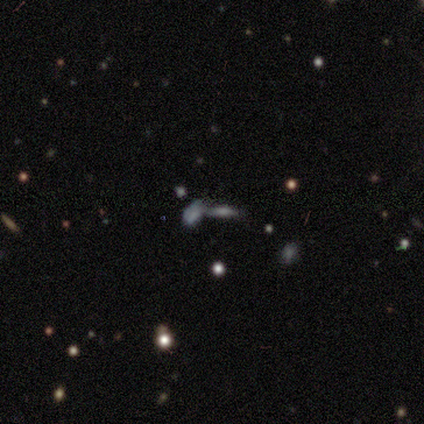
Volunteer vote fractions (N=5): smooth-or-featured: smooth: 40% (tied) | featured or disk: 40% (tied) | star or artifact: 20%
  how-rounded: in between: 100% | round: 0% | cigar-shaped: 0%
  merging: merger: 100% | none: 0% | minor disturbance: 0% | major disturbance: 0%